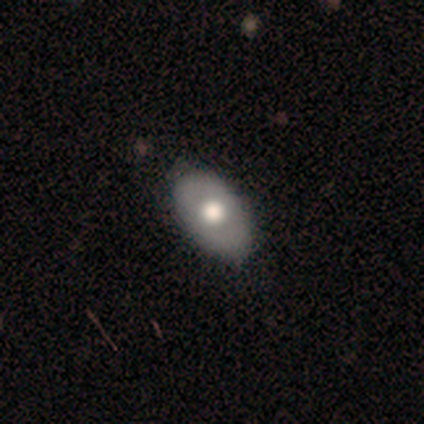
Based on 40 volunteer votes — Morphology: type=smooth (52%); roundness=in between (95%); merging=none (50%).